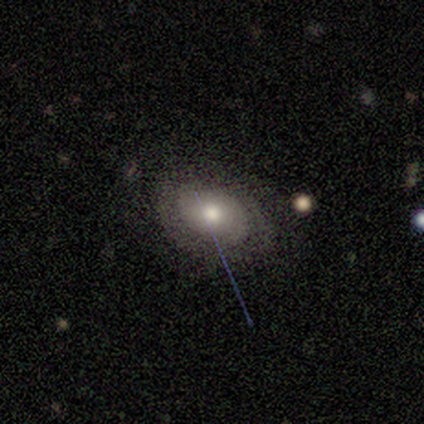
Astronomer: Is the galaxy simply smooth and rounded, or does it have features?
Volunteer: featured or disk — 100%.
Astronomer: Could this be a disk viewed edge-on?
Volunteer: no — 83%.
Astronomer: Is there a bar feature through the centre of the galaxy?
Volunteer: no — 80%.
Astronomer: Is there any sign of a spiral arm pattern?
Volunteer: yes — 60% (runner-up: no, 40%).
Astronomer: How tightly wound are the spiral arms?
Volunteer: tight — 67%.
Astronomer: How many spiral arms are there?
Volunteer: can't tell — 100%.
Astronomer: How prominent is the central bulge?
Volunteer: moderate — 100%.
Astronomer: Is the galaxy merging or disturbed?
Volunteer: none — 67%.